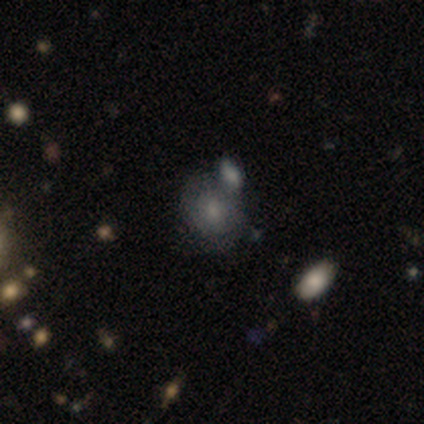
smooth_or_featured: smooth (p=0.40) [tied with: featured or disk p=0.40]
how_rounded: in between (p=1.00)
merging: merger (p=0.75) [alt: minor disturbance p=0.25]